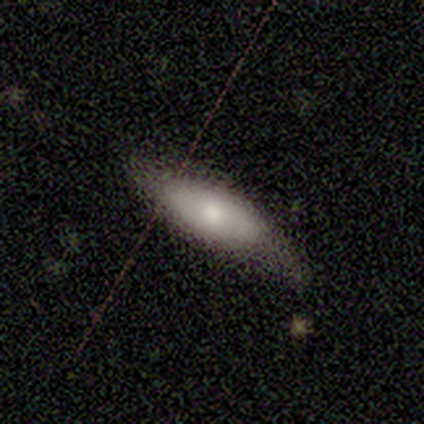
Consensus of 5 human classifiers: Q: Smooth or featured?
A: smooth (80%); runner-up: featured or disk (20%)
Q: How rounded?
A: in between (75%); runner-up: cigar-shaped (25%)
Q: Merging?
A: none (60%); runner-up: minor disturbance (20%)